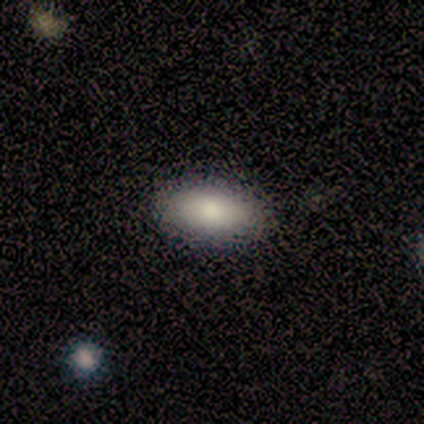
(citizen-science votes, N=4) A smooth galaxy with no disk features (50%) that is in between round and cigar-shaped (50%, tied with cigar-shaped).

Vote fractions:
- Smooth or featured? smooth: 50% / featured or disk: 25% / star or artifact: 25%
- How rounded? in between: 50% (tied) / cigar-shaped: 50% (tied) / round: 0%
- Merging? none: 100% / minor disturbance: 0% / major disturbance: 0% / merger: 0%